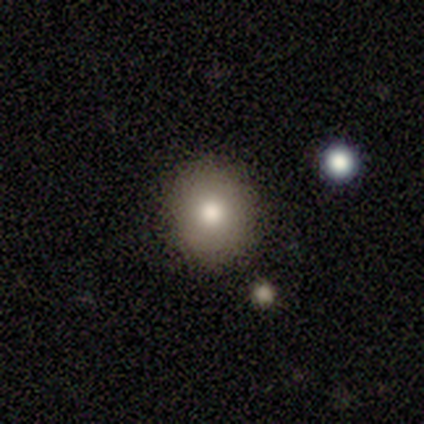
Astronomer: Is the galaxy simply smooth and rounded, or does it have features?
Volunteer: smooth — 80%.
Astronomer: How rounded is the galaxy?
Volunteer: round — 100%.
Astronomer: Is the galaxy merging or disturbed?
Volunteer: none — 100%.